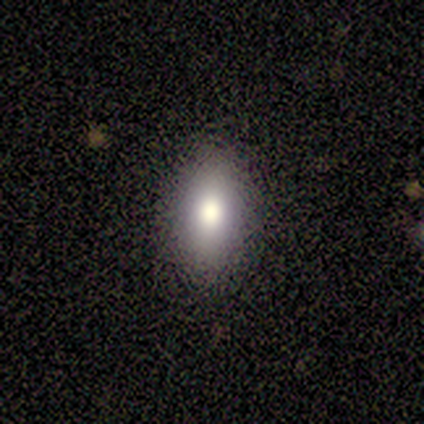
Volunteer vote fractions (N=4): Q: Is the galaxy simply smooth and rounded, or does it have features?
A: smooth — 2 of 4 (50%, tied with featured or disk).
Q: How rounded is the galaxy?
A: in between — 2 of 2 (100%).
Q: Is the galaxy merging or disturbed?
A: none — 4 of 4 (100%).